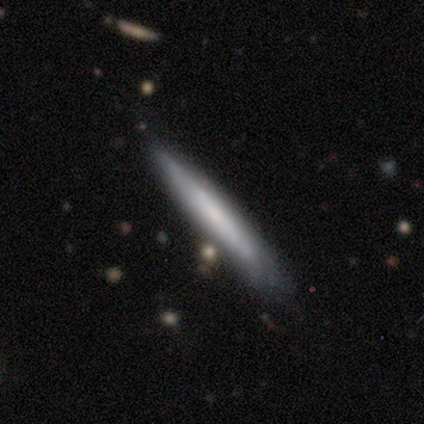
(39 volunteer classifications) This is possibly a smooth galaxy (49%). How rounded: clearly cigar-shaped (100%). Merging: likely none (67%).